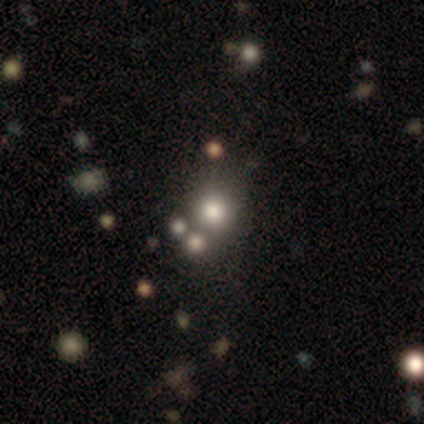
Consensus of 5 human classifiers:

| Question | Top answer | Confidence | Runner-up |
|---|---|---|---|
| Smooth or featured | smooth | 60% | featured or disk (20%) |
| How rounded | round | 100% | — |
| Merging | none | 75% | major disturbance (25%) |